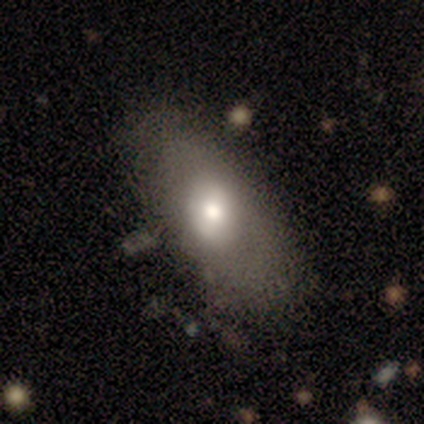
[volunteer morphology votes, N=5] smooth-or-featured: smooth: 100% | featured or disk: 0% | star or artifact: 0%
  how-rounded: in between: 100% | round: 0% | cigar-shaped: 0%
  merging: none: 60% | minor disturbance: 40% | major disturbance: 0% | merger: 0%